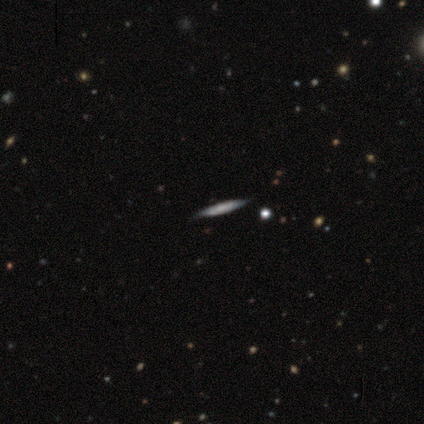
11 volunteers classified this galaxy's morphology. A featured or disk galaxy (73%) viewed edge-on (75%) with no central bulge (50%).

Vote fractions:
- Smooth or featured? featured or disk: 73% / smooth: 27% / star or artifact: 0%
- Edge-on disk? yes: 75% / no: 25%
- Edge-on bulge? none: 50% / boxy: 33% / rounded: 17%
- Merging? none: 82% / minor disturbance: 18% / major disturbance: 0% / merger: 0%